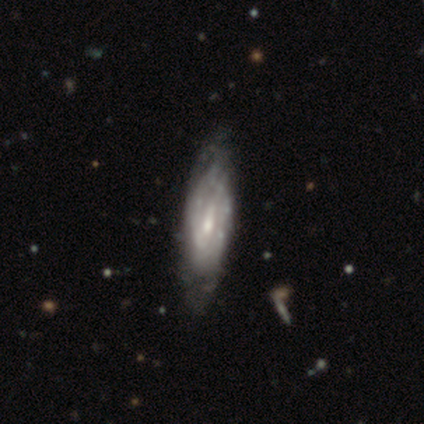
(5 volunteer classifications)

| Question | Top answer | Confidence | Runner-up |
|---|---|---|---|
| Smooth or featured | featured or disk | 80% | star or artifact (20%) |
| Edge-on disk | no | 100% | — |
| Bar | weak | 100% | — |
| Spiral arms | yes | 75% | no (25%) |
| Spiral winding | tight | 100% | — |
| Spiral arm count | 2 | 67% | can't tell (33%) |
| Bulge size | moderate | 75% | small (25%) |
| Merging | none | 75% | minor disturbance (25%) |